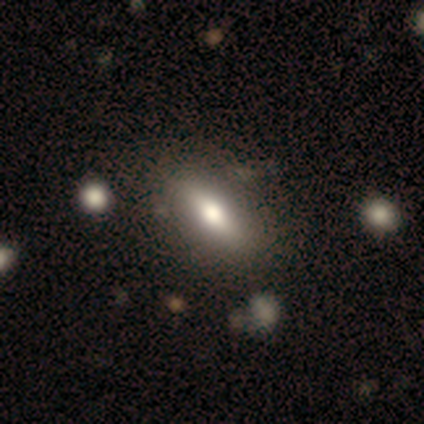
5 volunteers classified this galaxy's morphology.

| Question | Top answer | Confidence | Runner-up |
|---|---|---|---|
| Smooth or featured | smooth | 60% | featured or disk (40%) |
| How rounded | in between | 67% | cigar-shaped (33%) |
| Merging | none | 100% | — |